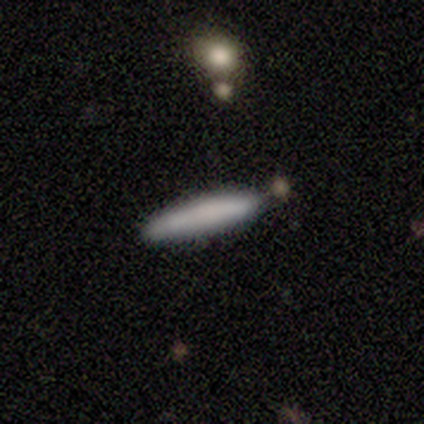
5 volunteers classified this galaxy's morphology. Smooth or featured? 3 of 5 (60%) said smooth. How rounded? 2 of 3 (67%) said cigar-shaped. Merging? 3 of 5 (60%) said none.